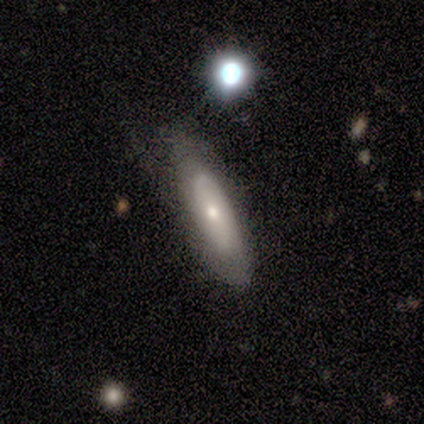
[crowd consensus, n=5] Smooth or featured?
  - featured or disk: 60% *
  - smooth: 40%
  - star or artifact: 0%
Edge-on disk?
  - no: 100% *
  - yes: 0%
Bar?
  - no: 100% *
  - strong: 0%
  - weak: 0%
Spiral arms?
  - no: 100% *
  - yes: 0%
Bulge size?
  - small: 67% *
  - moderate: 33%
  - dominant: 0%
  - large: 0%
  - none: 0%
Merging?
  - none: 80% *
  - major disturbance: 20%
  - minor disturbance: 0%
  - merger: 0%